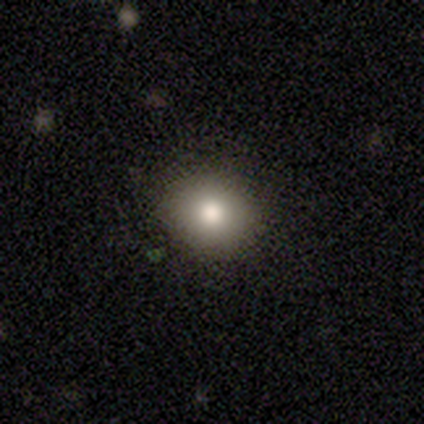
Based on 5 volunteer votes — Smooth or featured? 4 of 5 (80%) said smooth. How rounded? 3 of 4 (75%) said round. Merging? 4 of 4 (100%) said none.